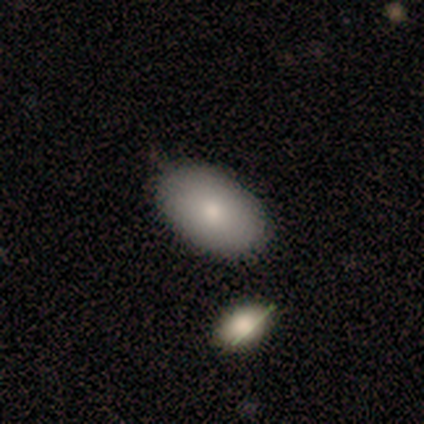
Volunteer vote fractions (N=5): smooth 60%, star or artifact 40%, featured or disk 0%. Down the decision tree: how rounded — in between (67%); merging — none (67%).